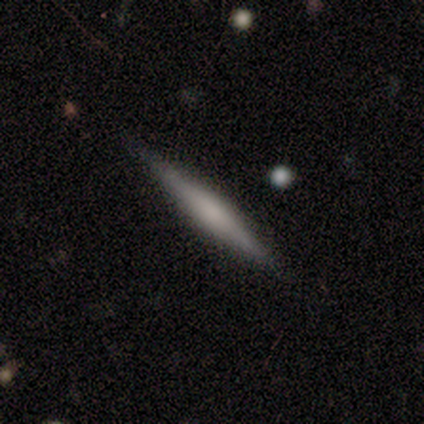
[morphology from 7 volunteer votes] Volunteers were most divided on "smooth or featured" (2-way tie): smooth: 43%, featured or disk: 43%, star or artifact: 14%. More confident: how rounded — cigar-shaped (100%); merging — none (100%).